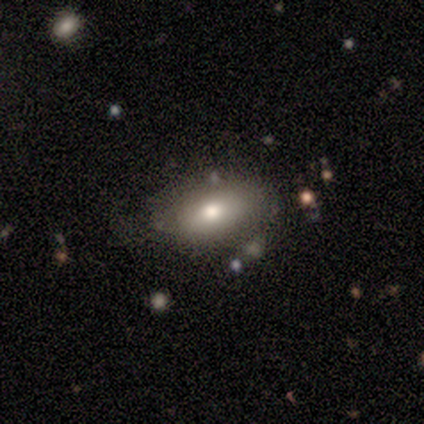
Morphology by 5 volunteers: smooth_or_featured: smooth (p=1.00)
how_rounded: in between (p=0.80) [alt: cigar-shaped p=0.20]
merging: none (p=0.60) [alt: minor disturbance p=0.40]